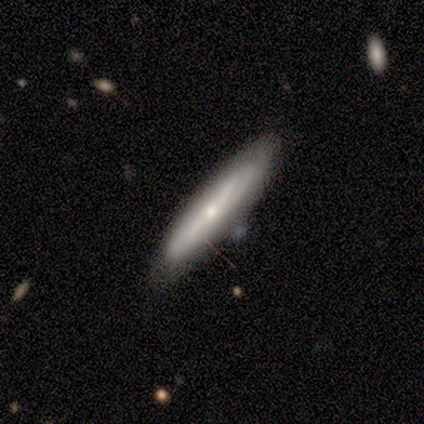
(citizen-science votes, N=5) smooth 60%, featured or disk 40%, star or artifact 0%. Down the decision tree: how rounded — cigar-shaped (67%); merging — none (100%).